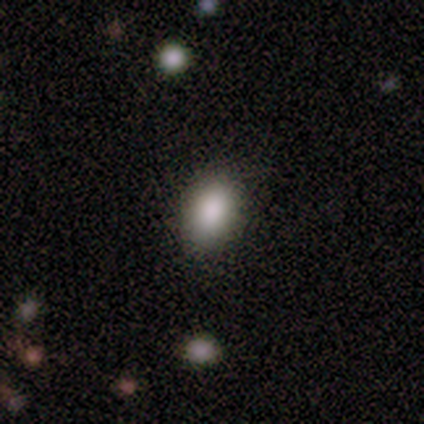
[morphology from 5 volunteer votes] A smooth galaxy with no disk features (80%) that is in between round and cigar-shaped (75%).

Vote fractions:
- Smooth or featured? smooth: 80% / featured or disk: 20% / star or artifact: 0%
- How rounded? in between: 75% / round: 25% / cigar-shaped: 0%
- Merging? none: 100% / minor disturbance: 0% / major disturbance: 0% / merger: 0%